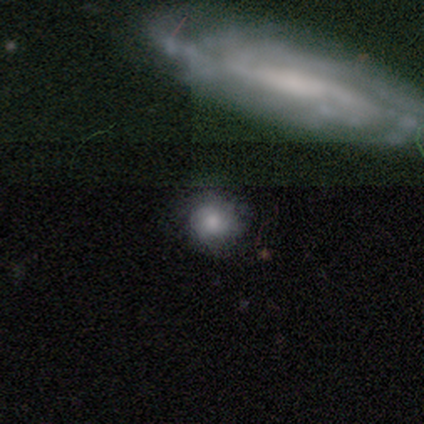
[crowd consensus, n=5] Overall: smooth (60%; featured or disk 20%). How rounded: round (67%; in between 33%). Merging: none (75%).